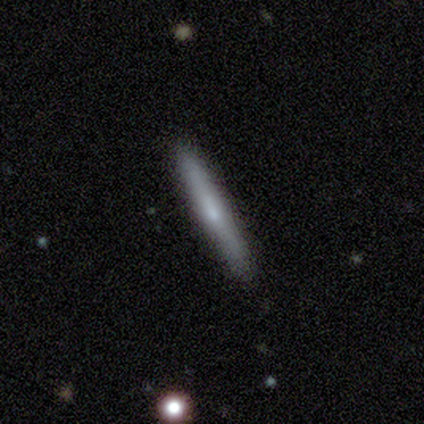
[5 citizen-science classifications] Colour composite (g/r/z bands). It shows a featured or disk galaxy (60%) viewed edge-on (100%) with no central bulge (67%). Merging: none (100%).